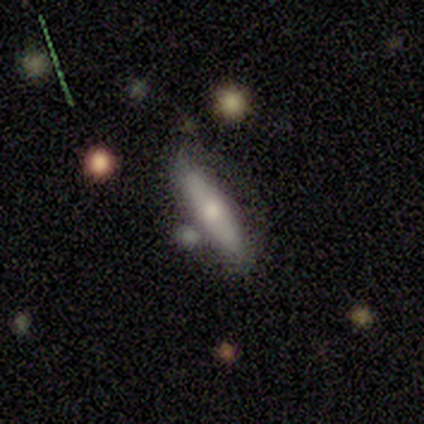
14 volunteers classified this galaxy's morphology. smooth-or-featured: smooth: 71% | featured or disk: 29% | star or artifact: 0%
  how-rounded: cigar-shaped: 70% | in between: 20% | round: 10%
  merging: none: 64% | minor disturbance: 29% | merger: 7% | major disturbance: 0%